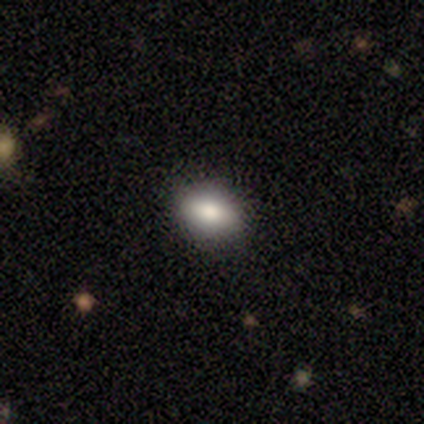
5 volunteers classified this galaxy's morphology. Smooth or featured? 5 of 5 (100%) said smooth. How rounded? 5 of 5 (100%) said in between. Merging? 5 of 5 (100%) said none.